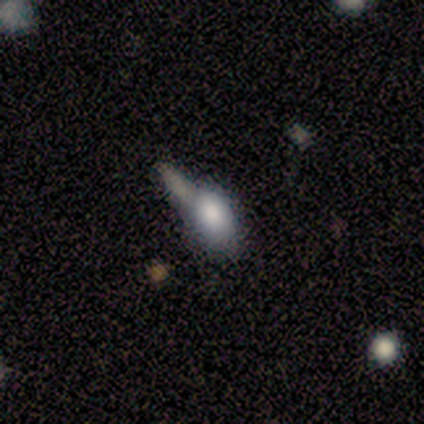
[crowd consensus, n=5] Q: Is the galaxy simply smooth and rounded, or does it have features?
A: smooth — 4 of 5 (80%).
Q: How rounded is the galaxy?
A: in between — 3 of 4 (75%).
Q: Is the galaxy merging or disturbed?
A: major disturbance — 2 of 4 (50%).